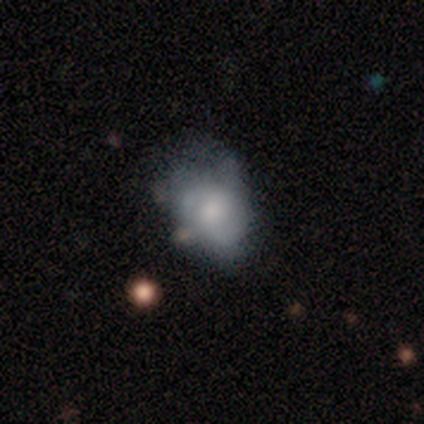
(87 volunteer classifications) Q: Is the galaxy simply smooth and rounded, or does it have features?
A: smooth — 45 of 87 (52%).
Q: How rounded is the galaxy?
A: in between — 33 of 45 (73%).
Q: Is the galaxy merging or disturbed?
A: none — 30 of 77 (39%).